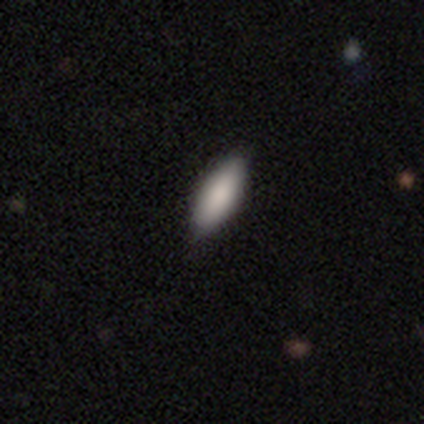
This appears to be a smooth galaxy with no disk features (80%) that is in between round and cigar-shaped (50%, tied with cigar-shaped). Merging: none (100%).